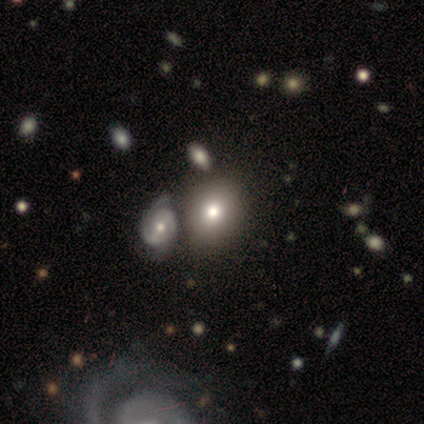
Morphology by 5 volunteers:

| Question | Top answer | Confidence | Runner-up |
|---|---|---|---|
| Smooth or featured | smooth | 40% | tied: featured or disk (40%) |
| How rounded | in between | 100% | — |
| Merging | minor disturbance | 75% | none (25%) |